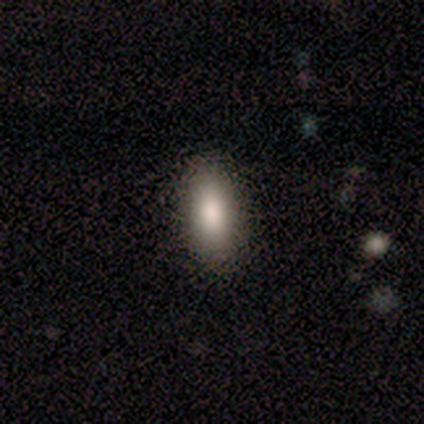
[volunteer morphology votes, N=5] Smooth or featured? 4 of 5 (80%) said smooth. How rounded? 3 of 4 (75%) said in between. Merging? 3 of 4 (75%) said none.